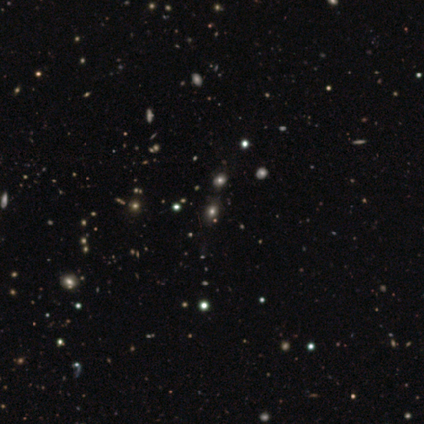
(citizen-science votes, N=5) Smooth or featured? 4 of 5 (80%) said smooth. How rounded? 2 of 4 (50%, tied with in between) said round. Merging? 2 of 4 (50%) said none.